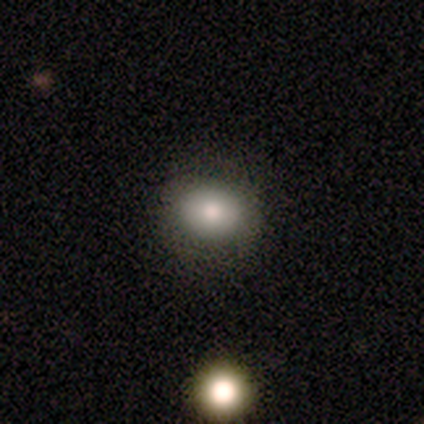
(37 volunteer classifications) A smooth galaxy with no disk features (70%) that is round (50%, tied with in between).

Vote fractions:
- Smooth or featured? smooth: 70% / star or artifact: 19% / featured or disk: 11%
- How rounded? round: 50% (tied) / in between: 50% (tied) / cigar-shaped: 0%
- Merging? none: 87% / minor disturbance: 10% / major disturbance: 3% / merger: 0%